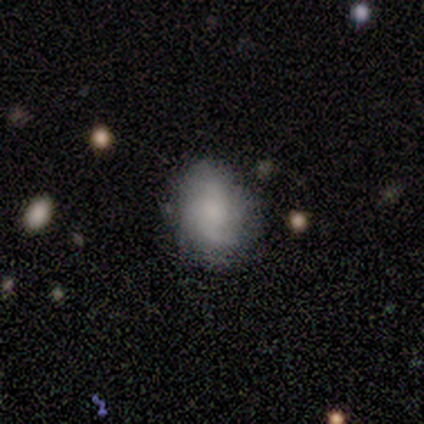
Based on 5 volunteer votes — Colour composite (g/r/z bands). It shows a featured or disk galaxy (60%) with no bar (67%), 2 (33%, tied with 3 and can't tell) medium (67%) spiral arms (100%) and a small central bulge (67%). Merging: none (60%).